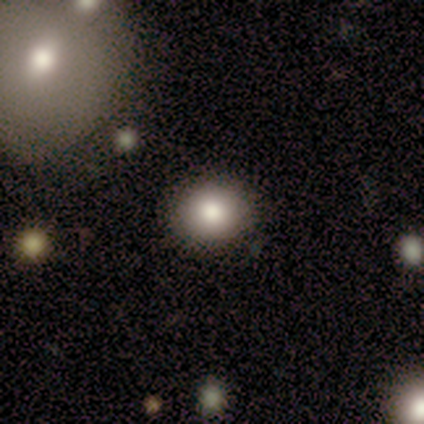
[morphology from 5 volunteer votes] smooth-or-featured: smooth: 100% | featured or disk: 0% | star or artifact: 0%
  how-rounded: round: 100% | in between: 0% | cigar-shaped: 0%
  merging: none: 100% | minor disturbance: 0% | major disturbance: 0% | merger: 0%